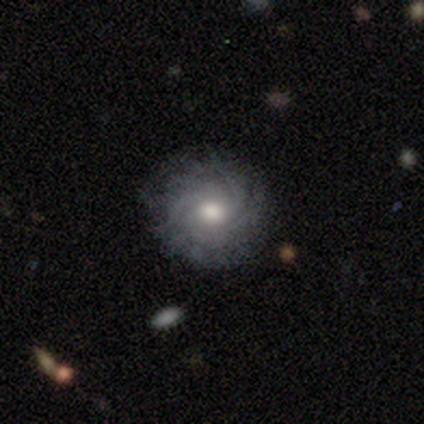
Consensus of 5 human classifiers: smooth_or_featured: featured or disk (p=0.60) [alt: smooth p=0.40]
disk_edge_on: no (p=1.00)
bar: no (p=0.67) [alt: weak p=0.33]
has_spiral_arms: yes (p=1.00)
spiral_winding: tight (p=0.67) [alt: medium p=0.33]
spiral_arm_count: 4 (p=0.33) [tied with: more than 4 p=0.33, can't tell p=0.33]
bulge_size: moderate (p=1.00)
merging: none (p=1.00)